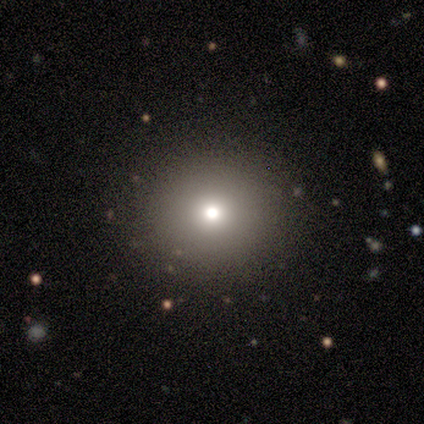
Volunteers were most divided on "smooth or featured": smooth: 74%, featured or disk: 13%, star or artifact: 13%. More confident: how rounded — round (90%); merging — none (88%).